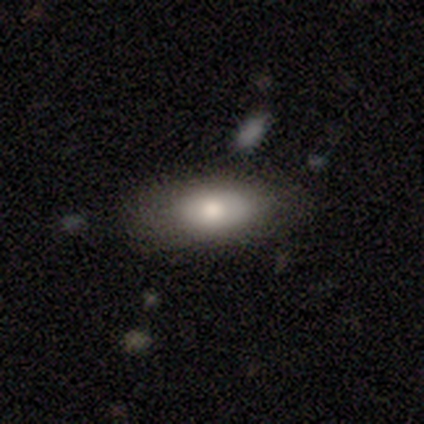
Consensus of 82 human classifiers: Volunteers were most divided on "smooth or featured": smooth: 73%, featured or disk: 21%, star or artifact: 6%. More confident: how rounded — in between (88%); merging — none (79%).